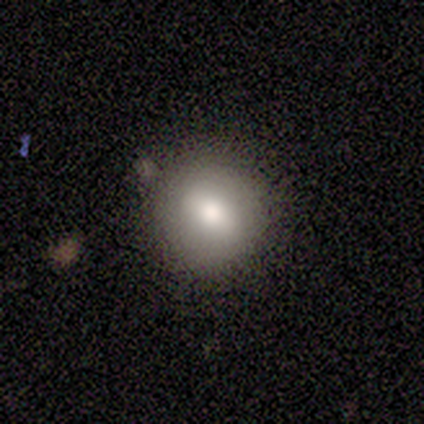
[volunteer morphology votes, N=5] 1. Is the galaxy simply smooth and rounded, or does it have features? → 60% smooth, 20% featured or disk, 20% star or artifact.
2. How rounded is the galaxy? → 100% round, 0% in between, 0% cigar-shaped.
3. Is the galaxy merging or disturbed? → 100% none, 0% minor disturbance, 0% major disturbance, 0% merger.